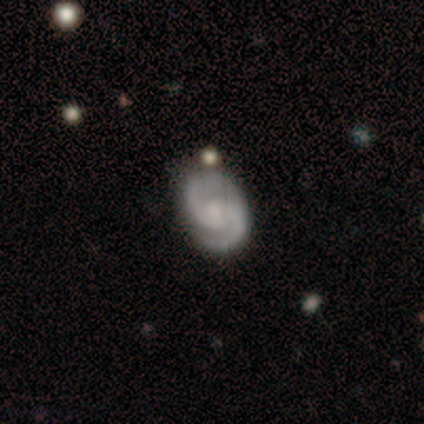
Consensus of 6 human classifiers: Volunteers were most divided on "bulge size" (3-way tie): moderate: 33%, small: 33%, none: 33%, dominant: 0%, large: 0%. More confident: smooth or featured — featured or disk (100%); edge-on disk — no (100%); spiral arms — yes (100%); spiral arm count — 2 (100%); merging — none (83%); bar — no (67%); spiral winding — medium (67%).